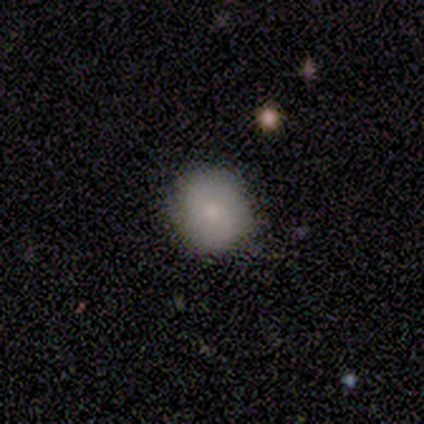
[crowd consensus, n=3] Q: Smooth or featured?
A: smooth (100%)
Q: How rounded?
A: round (100%)
Q: Merging?
A: none (100%)